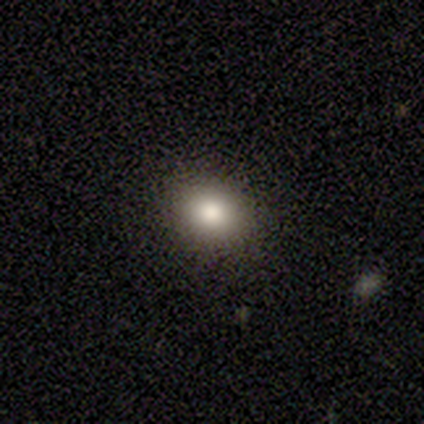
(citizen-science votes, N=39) Smooth or featured?
  - smooth: 85% *
  - star or artifact: 10%
  - featured or disk: 5%
How rounded?
  - round: 52% *
  - in between: 42%
  - cigar-shaped: 6%
Merging?
  - none: 86% *
  - minor disturbance: 11%
  - major disturbance: 3%
  - merger: 0%